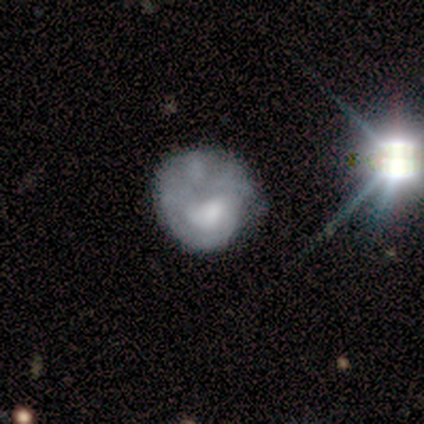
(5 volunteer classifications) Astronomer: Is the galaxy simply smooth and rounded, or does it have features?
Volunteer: featured or disk — 80%.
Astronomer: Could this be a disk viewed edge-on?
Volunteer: no — 100%.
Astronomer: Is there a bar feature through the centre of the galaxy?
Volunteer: no — 75%.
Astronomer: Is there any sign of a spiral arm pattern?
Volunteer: yes — 75%.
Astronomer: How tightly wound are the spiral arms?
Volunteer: medium — 67%.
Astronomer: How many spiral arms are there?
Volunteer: can't tell — 67%.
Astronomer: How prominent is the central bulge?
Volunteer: none — 75%.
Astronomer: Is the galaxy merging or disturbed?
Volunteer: none — 60%.